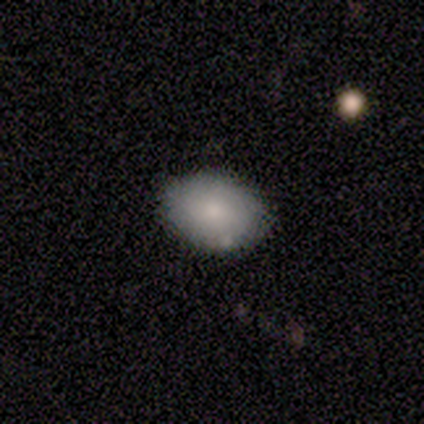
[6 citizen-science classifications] smooth-or-featured: smooth: 100% | featured or disk: 0% | star or artifact: 0%
  how-rounded: in between: 83% | round: 17% | cigar-shaped: 0%
  merging: none: 100% | minor disturbance: 0% | major disturbance: 0% | merger: 0%